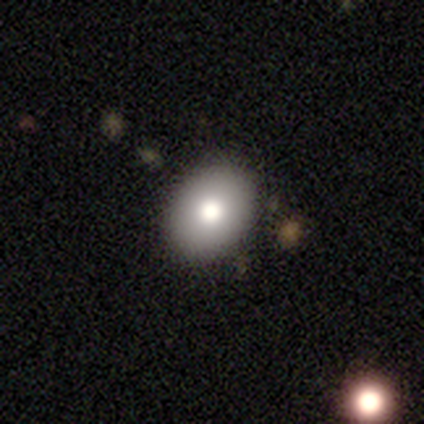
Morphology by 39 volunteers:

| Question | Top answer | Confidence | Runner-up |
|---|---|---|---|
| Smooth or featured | smooth | 79% | featured or disk (13%) |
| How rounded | in between | 65% | round (35%) |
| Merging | none | 81% | minor disturbance (14%) |